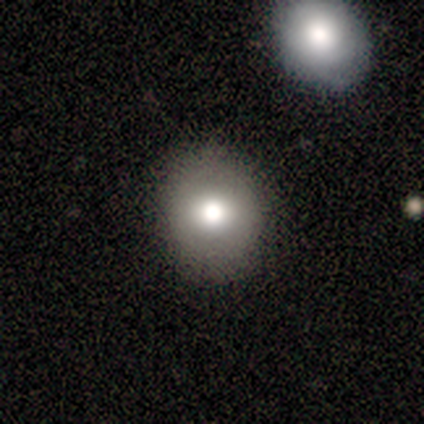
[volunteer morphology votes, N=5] smooth-or-featured: smooth: 80% | star or artifact: 20% | featured or disk: 0%
  how-rounded: round: 100% | in between: 0% | cigar-shaped: 0%
  merging: none: 100% | minor disturbance: 0% | major disturbance: 0% | merger: 0%